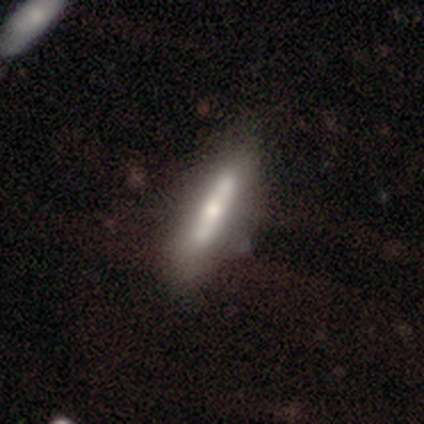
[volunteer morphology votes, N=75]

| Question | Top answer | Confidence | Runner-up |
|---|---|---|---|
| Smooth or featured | smooth | 49% | featured or disk (47%) |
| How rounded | cigar-shaped | 89% | in between (8%) |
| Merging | none | 53% | minor disturbance (15%) |